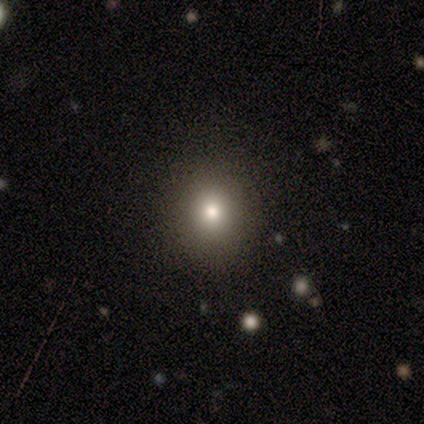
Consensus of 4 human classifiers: smooth_or_featured: smooth (p=0.50) [alt: featured or disk p=0.25]
how_rounded: round (p=1.00)
merging: none (p=1.00)